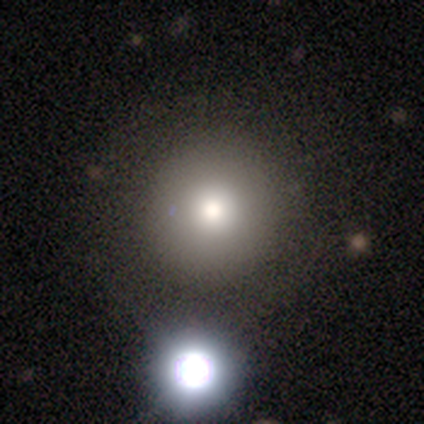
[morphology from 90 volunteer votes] Smooth or featured? smooth (72%)
How rounded? round (98%)
Merging? none (84%)